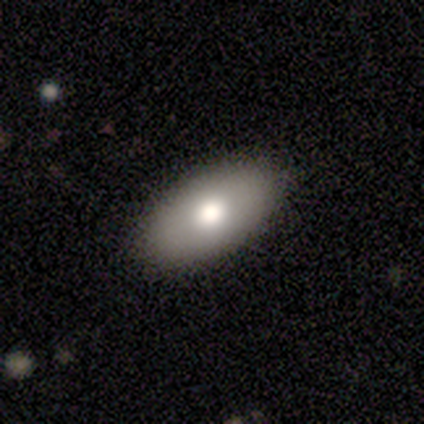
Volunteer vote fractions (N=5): Volunteers were most divided on "smooth or featured": smooth: 60%, featured or disk: 40%, star or artifact: 0%. More confident: how rounded — in between (100%); merging — none (100%).